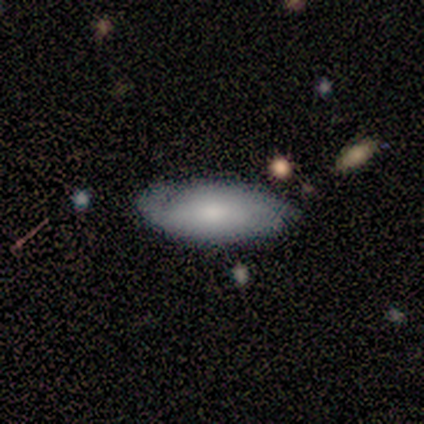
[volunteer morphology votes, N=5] A smooth galaxy with no disk features (60%) that is in between round and cigar-shaped (100%).

Vote fractions:
- Smooth or featured? smooth: 60% / featured or disk: 40% / star or artifact: 0%
- How rounded? in between: 100% / round: 0% / cigar-shaped: 0%
- Merging? none: 80% / major disturbance: 20% / minor disturbance: 0% / merger: 0%